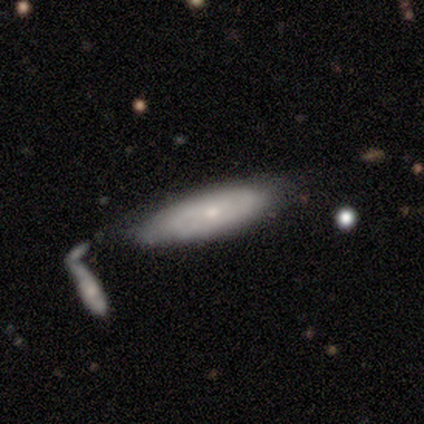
smooth-or-featured: smooth: 50% (tied) | featured or disk: 50% (tied) | star or artifact: 0%
  how-rounded: in between: 100% | round: 0% | cigar-shaped: 0%
  merging: merger: 50% | none: 25% | major disturbance: 25% | minor disturbance: 0%